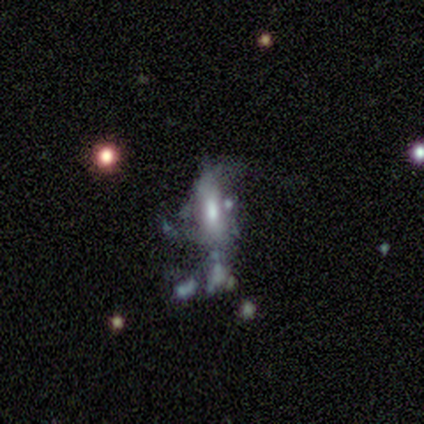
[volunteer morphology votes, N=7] Q: Smooth or featured?
A: featured or disk (57%); runner-up: smooth (29%)
Q: Edge-on disk?
A: no (100%)
Q: Bar?
A: no (50%); runner-up: strong (25%)
Q: Spiral arms?
A: no (75%); runner-up: yes (25%)
Q: Bulge size?
A: moderate (75%); runner-up: small (25%)
Q: Merging?
A: major disturbance (50%); runner-up: merger (33%)